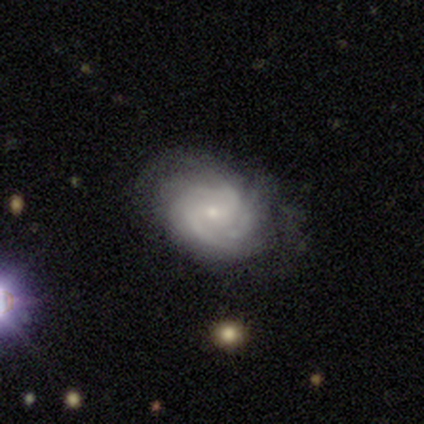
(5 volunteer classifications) A featured or disk galaxy (80%) with no bar (75%), 4 (67%) tight (67%) spiral arms (75%) and a small central bulge (75%).

Vote fractions:
- Smooth or featured? featured or disk: 80% / smooth: 20% / star or artifact: 0%
- Edge-on disk? no: 100% / yes: 0%
- Bar? no: 75% / weak: 25% / strong: 0%
- Spiral arms? yes: 75% / no: 25%
- Spiral winding? tight: 67% / medium: 33% / loose: 0%
- Spiral arm count? 4: 67% / 2: 33% / 1: 0% / 3: 0% / more than 4: 0% / can't tell: 0%
- Bulge size? small: 75% / moderate: 25% / dominant: 0% / large: 0% / none: 0%
- Merging? none: 80% / major disturbance: 20% / minor disturbance: 0% / merger: 0%